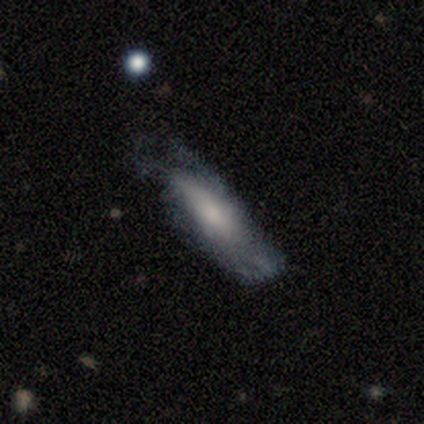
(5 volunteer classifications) Morphology: type=smooth (60%); roundness=in between (100%); merging=none (40%, tied with minor disturbance).